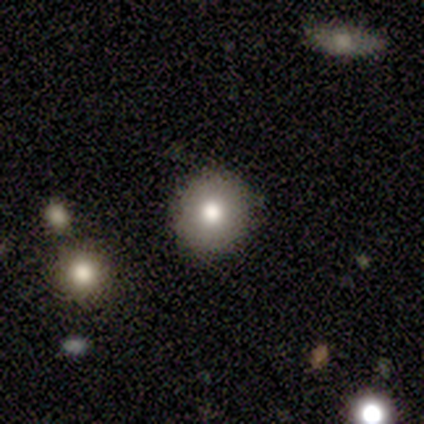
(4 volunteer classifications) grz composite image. It shows a smooth galaxy with no disk features (50%) that is round (100%). Merging: none (67%).